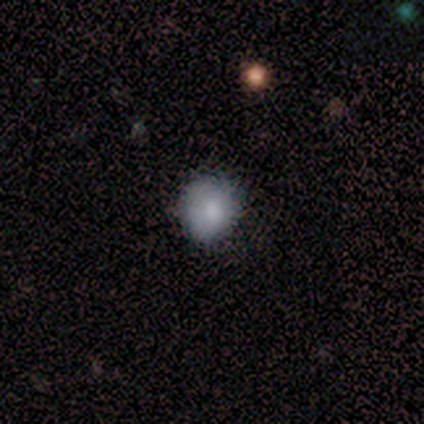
A smooth galaxy with no disk features (100%) that is round (100%).

Vote fractions:
- Smooth or featured? smooth: 100% / featured or disk: 0% / star or artifact: 0%
- How rounded? round: 100% / in between: 0% / cigar-shaped: 0%
- Merging? none: 100% / minor disturbance: 0% / major disturbance: 0% / merger: 0%